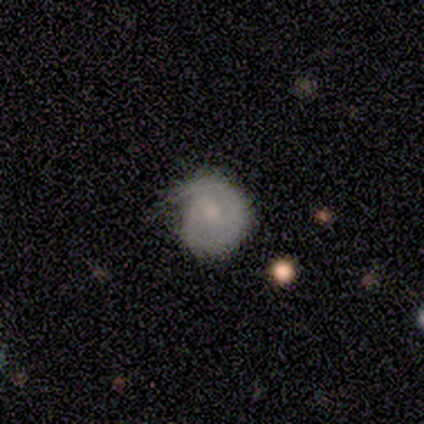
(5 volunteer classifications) Q: Smooth or featured?
A: smooth (60%); runner-up: featured or disk (40%)
Q: How rounded?
A: round (100%)
Q: Merging?
A: none (40%); tied with: major disturbance (40%)